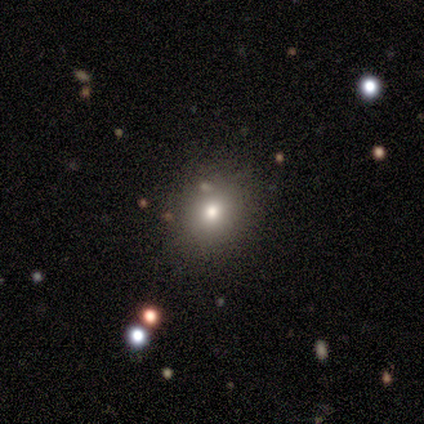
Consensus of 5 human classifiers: Overall: smooth (60%; star or artifact 40%). How rounded: round (67%; in between 33%). Merging: none (67%; minor disturbance 33%).